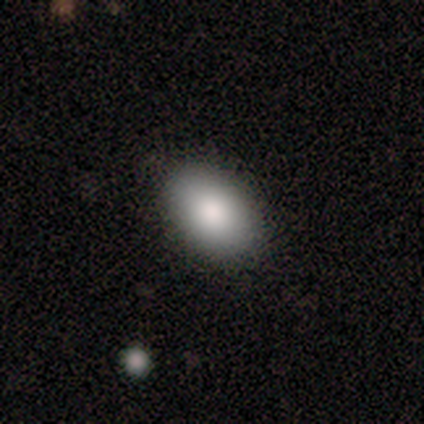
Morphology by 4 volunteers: A smooth galaxy with no disk features (100%) that is in between round and cigar-shaped (100%). Merging: none (75%).